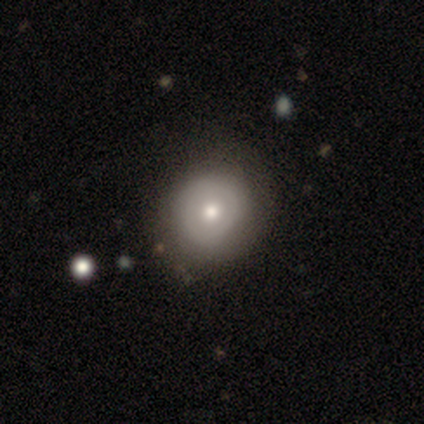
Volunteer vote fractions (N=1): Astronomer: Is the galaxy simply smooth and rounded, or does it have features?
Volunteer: smooth — 100%.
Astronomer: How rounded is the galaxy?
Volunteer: round — 100%.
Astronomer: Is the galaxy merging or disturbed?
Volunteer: none — 100%.